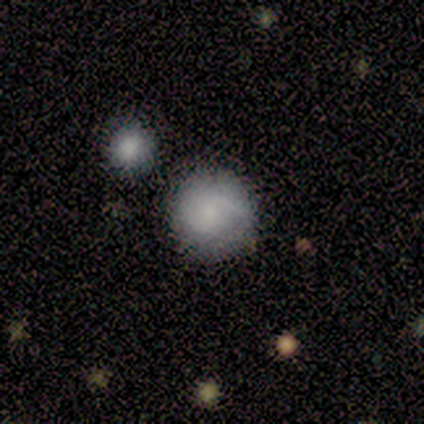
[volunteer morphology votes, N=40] Smooth or featured?
  - smooth: 68% *
  - featured or disk: 22%
  - star or artifact: 10%
How rounded?
  - round: 89% *
  - in between: 11%
  - cigar-shaped: 0%
Merging?
  - none: 78% *
  - merger: 11%
  - minor disturbance: 6%
  - major disturbance: 6%